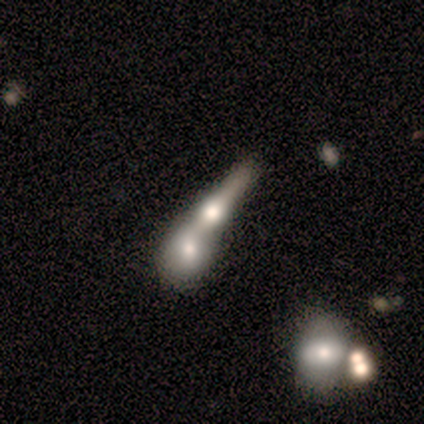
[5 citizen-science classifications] smooth 60%, featured or disk 40%, star or artifact 0%. Down the decision tree: how rounded — cigar-shaped (100%); merging — merger (80%).